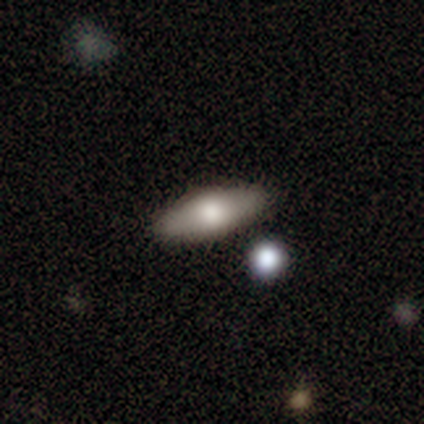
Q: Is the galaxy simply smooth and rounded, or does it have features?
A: smooth — 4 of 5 (80%).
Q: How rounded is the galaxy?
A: in between — 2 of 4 (50%, tied with cigar-shaped).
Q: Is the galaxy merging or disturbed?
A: none — 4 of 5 (80%).